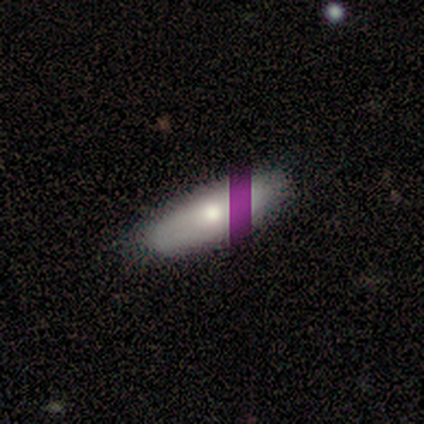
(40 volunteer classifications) Smooth or featured? smooth (75%)
How rounded? in between (60%)
Merging? none (64%)